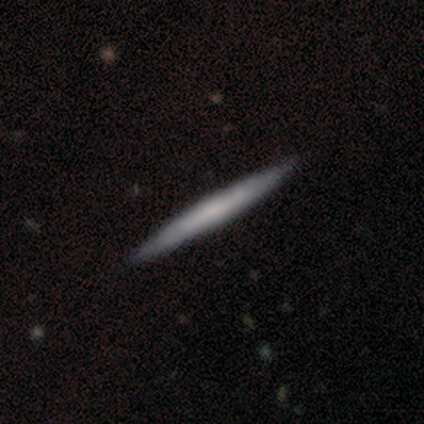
Volunteers were most divided on "smooth or featured" (2-way tie): smooth: 49%, featured or disk: 49%, star or artifact: 3%. More confident: how rounded — cigar-shaped (95%); merging — none (79%).